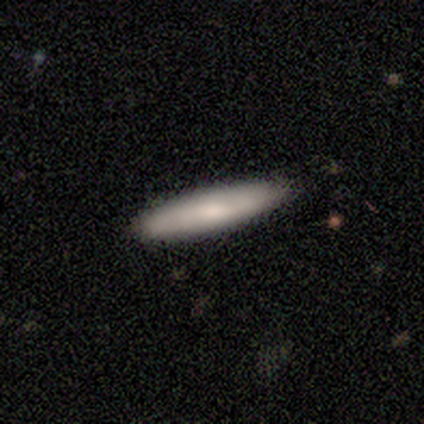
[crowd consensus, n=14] Smooth or featured?
  - smooth: 86% *
  - featured or disk: 14%
  - star or artifact: 0%
How rounded?
  - cigar-shaped: 92% *
  - in between: 8%
  - round: 0%
Merging?
  - none: 71% *
  - minor disturbance: 21%
  - major disturbance: 7%
  - merger: 0%